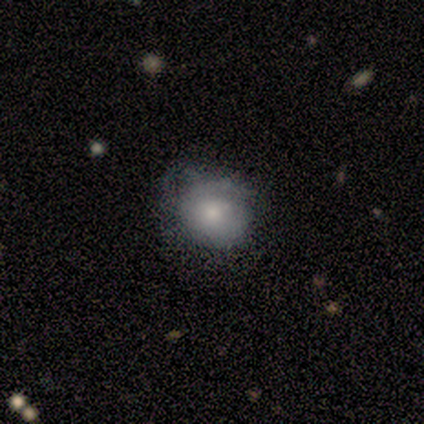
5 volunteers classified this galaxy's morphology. Smooth or featured?
  - smooth: 60% *
  - featured or disk: 40%
  - star or artifact: 0%
How rounded?
  - round: 67% *
  - in between: 33%
  - cigar-shaped: 0%
Merging?
  - none: 40% * (tied)
  - minor disturbance: 40% * (tied)
  - major disturbance: 20%
  - merger: 0%